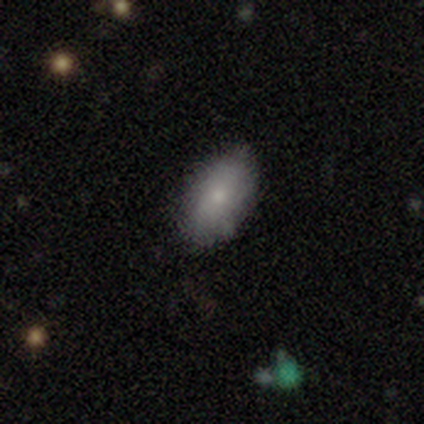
Overall: smooth (100%). How rounded: in between (100%). Merging: none (80%).